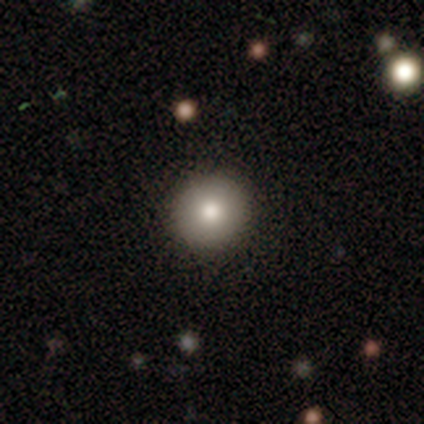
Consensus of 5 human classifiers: smooth-or-featured: smooth: 60% | featured or disk: 40% | star or artifact: 0%
  how-rounded: round: 100% | in between: 0% | cigar-shaped: 0%
  merging: none: 100% | minor disturbance: 0% | major disturbance: 0% | merger: 0%